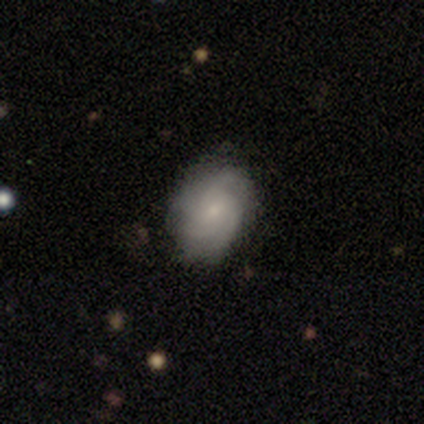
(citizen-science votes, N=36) Morphology: type=featured or disk (81%); edge-on=no (100%); bar=no (59%); spiral arms=yes (93%); winding=tight (59%); arm count=4 (41%); bulge=small (69%); merging=none (79%).